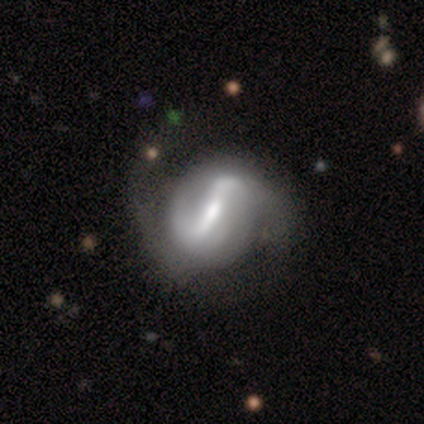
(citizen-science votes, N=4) A featured or disk galaxy (75%) with a strong bar (33%, tied with weak and no), 2 (100%) tight (50%, tied with medium) spiral arms (67%) and a moderate central bulge (100%). Merging: none (50%).